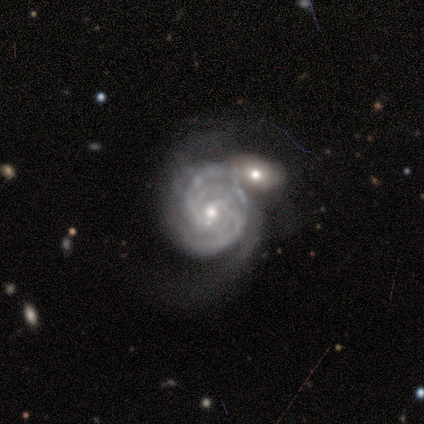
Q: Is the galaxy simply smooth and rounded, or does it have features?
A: featured or disk — 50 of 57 (88%).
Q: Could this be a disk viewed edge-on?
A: no — 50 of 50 (100%).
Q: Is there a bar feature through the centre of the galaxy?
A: no — 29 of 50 (58%).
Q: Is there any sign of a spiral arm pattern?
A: yes — 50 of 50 (100%).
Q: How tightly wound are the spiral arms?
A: tight — 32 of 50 (64%).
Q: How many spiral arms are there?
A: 2 — 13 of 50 (26%).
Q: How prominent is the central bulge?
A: moderate — 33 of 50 (66%).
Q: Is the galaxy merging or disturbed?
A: merger — 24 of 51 (47%).